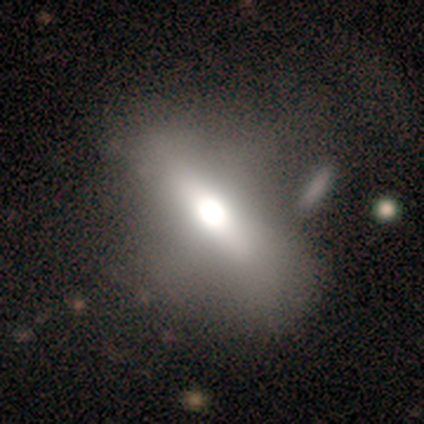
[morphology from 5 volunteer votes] A smooth galaxy with no disk features (40%, tied with featured or disk) that is in between round and cigar-shaped (50%, tied with cigar-shaped).

Vote fractions:
- Smooth or featured? smooth: 40% (tied) / featured or disk: 40% (tied) / star or artifact: 20%
- How rounded? in between: 50% (tied) / cigar-shaped: 50% (tied) / round: 0%
- Merging? none: 75% / minor disturbance: 25% / major disturbance: 0% / merger: 0%